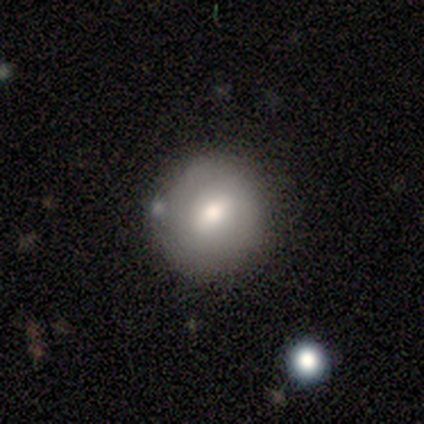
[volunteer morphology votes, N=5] Smooth or featured? smooth (80%)
How rounded? round (75%)
Merging? none (75%)